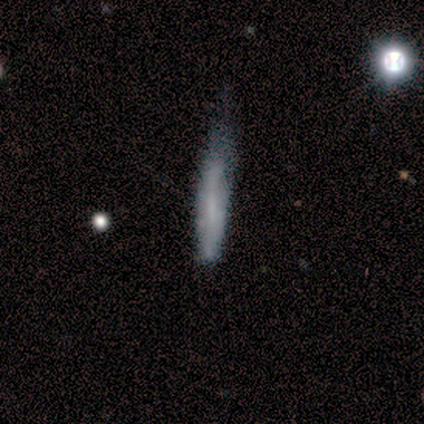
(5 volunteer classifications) Volunteers were most divided on "merging": minor disturbance: 60%, none: 40%, major disturbance: 0%, merger: 0%. More confident: smooth or featured — smooth (80%); how rounded — cigar-shaped (75%).